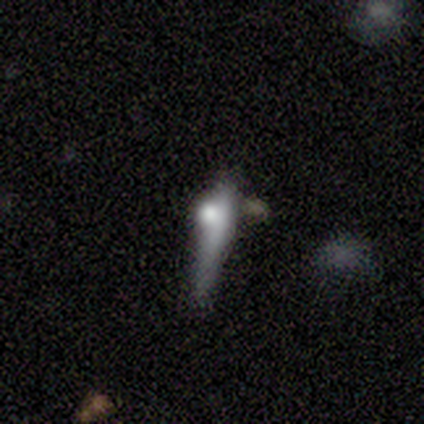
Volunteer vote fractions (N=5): Smooth or featured: featured or disk — 60% (smooth — 20%)
Edge-on disk: yes — 67% (no — 33%)
Edge-on bulge: none — 50% (tied with rounded — 50%)
Merging: none — 75% (major disturbance — 25%)